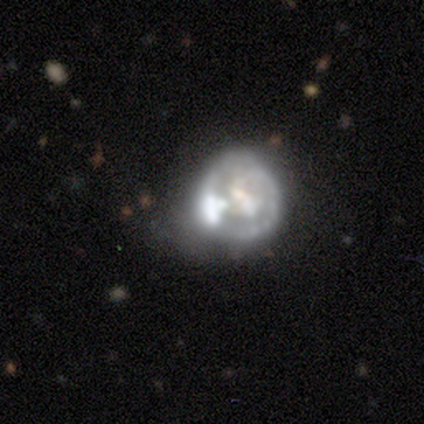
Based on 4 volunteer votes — smooth_or_featured: featured or disk (p=0.75) [alt: smooth p=0.25]
disk_edge_on: no (p=1.00)
bar: no (p=1.00)
has_spiral_arms: no (p=1.00)
bulge_size: large (p=0.33) [tied with: moderate p=0.33, none p=0.33]
merging: minor disturbance (p=0.50) [alt: none p=0.25]